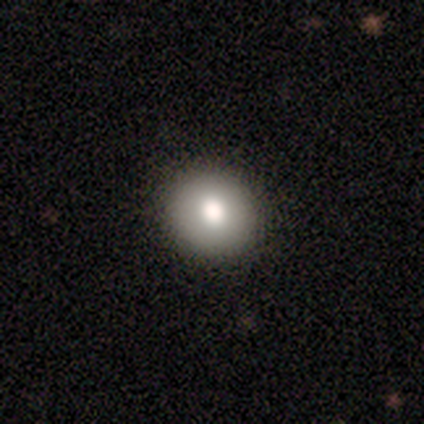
Smooth or featured? smooth (40%, tied with featured or disk)
How rounded? round (100%)
Merging? none (75%)